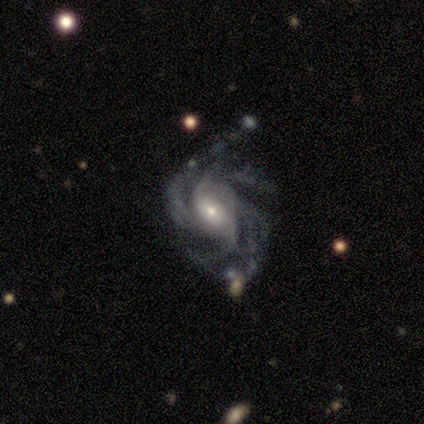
Volunteers were most divided on "spiral winding" (2-way tie): tight: 50%, medium: 50%, loose: 0%; "spiral arm count" (4-way tie): 2: 25%, 3: 25%, 4: 25%, more than 4: 25%, 1: 0%, can't tell: 0%. More confident: smooth or featured — featured or disk (100%); edge-on disk — no (100%); spiral arms — yes (100%); bar — no (75%); merging — none (75%); bulge size — moderate (50%).